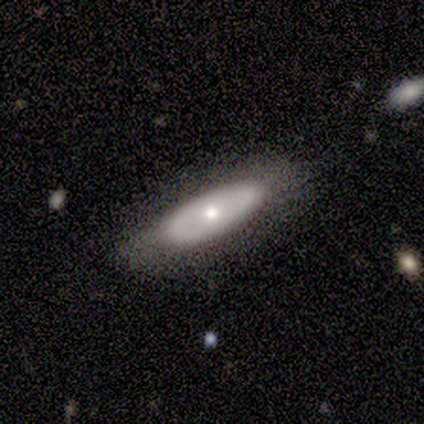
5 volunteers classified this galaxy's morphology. A smooth galaxy with no disk features (100%) that is in between round and cigar-shaped (60%).

Vote fractions:
- Smooth or featured? smooth: 100% / featured or disk: 0% / star or artifact: 0%
- How rounded? in between: 60% / cigar-shaped: 40% / round: 0%
- Merging? none: 100% / minor disturbance: 0% / major disturbance: 0% / merger: 0%